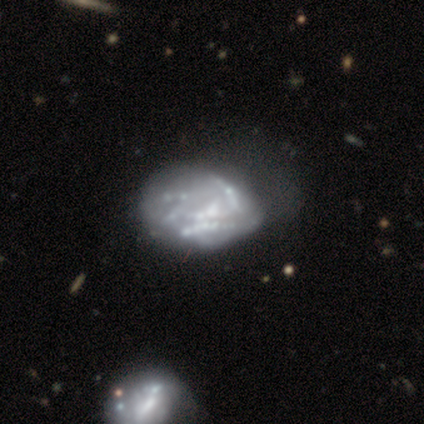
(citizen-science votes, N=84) This appears to be a featured or disk galaxy (76%) with no bar (88%), no spiral arms (83%) and no central bulge (59%). Merging: major disturbance (36%).